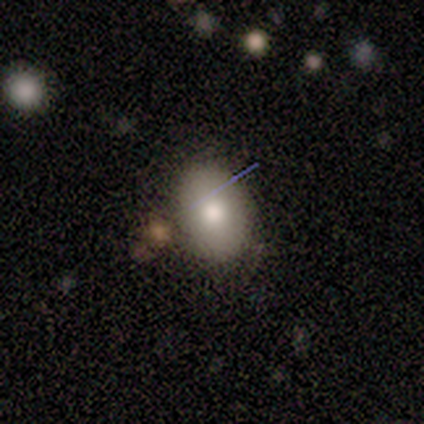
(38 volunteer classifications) A smooth galaxy with no disk features (76%) that is in between round and cigar-shaped (79%). Merging: none (69%).